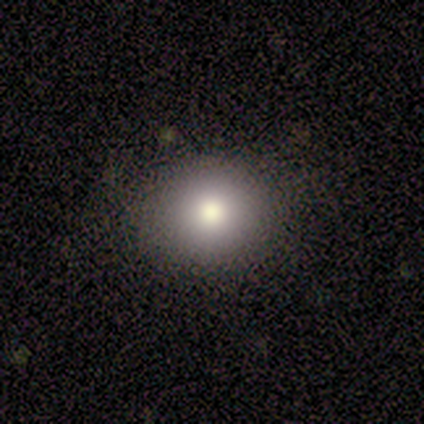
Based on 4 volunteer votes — Overall: smooth (75%). How rounded: in between (67%; round 33%). Merging: none (100%).